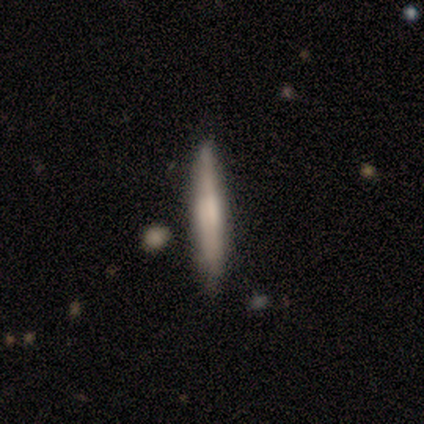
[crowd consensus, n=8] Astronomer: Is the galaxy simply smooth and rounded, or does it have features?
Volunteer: smooth — 50%, tied with featured or disk at 50%.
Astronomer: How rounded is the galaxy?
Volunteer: cigar-shaped — 100%.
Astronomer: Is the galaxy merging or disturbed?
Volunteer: none — 75%.